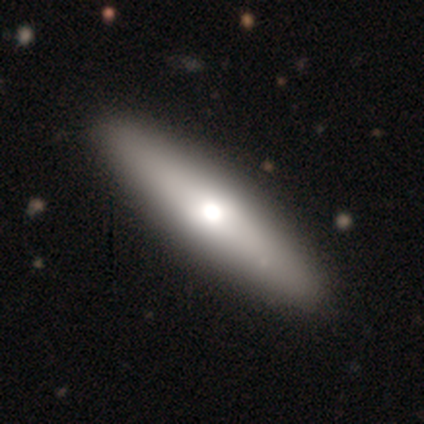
This appears to be a smooth galaxy with no disk features (55%) that is cigar-shaped (77%). Merging: none (76%).